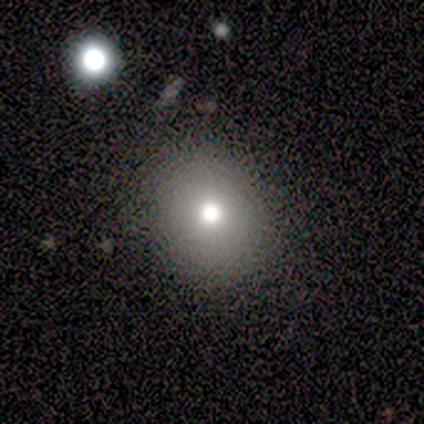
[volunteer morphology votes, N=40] Q: Smooth or featured?
A: smooth (60%); runner-up: featured or disk (25%)
Q: How rounded?
A: round (71%); runner-up: in between (29%)
Q: Merging?
A: none (79%); runner-up: minor disturbance (12%)